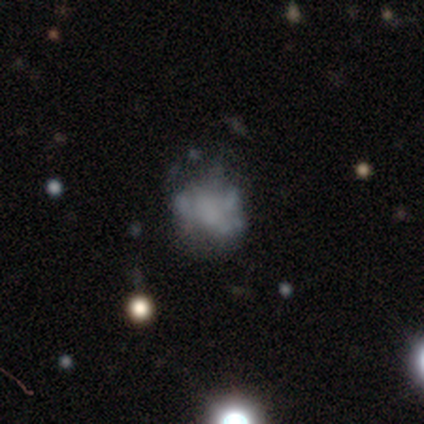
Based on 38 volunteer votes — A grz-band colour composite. It shows a featured or disk galaxy (63%) with no bar (96%), no spiral arms (79%) and no central bulge (71%). Merging: none (49%).